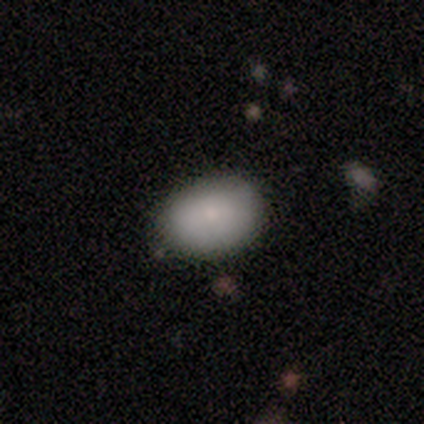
Overall: smooth (75%). How rounded: in between (100%). Merging: none (75%).